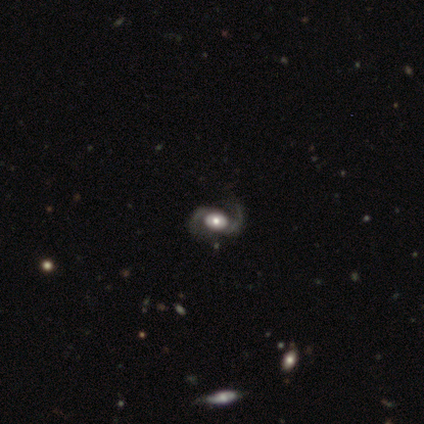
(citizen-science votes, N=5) A featured or disk galaxy (100%) with no bar (60%), 2 (100%) medium (60%) spiral arms (100%) and a moderate central bulge (60%).

Vote fractions:
- Smooth or featured? featured or disk: 100% / smooth: 0% / star or artifact: 0%
- Edge-on disk? no: 100% / yes: 0%
- Bar? no: 60% / weak: 40% / strong: 0%
- Spiral arms? yes: 100% / no: 0%
- Spiral winding? medium: 60% / loose: 40% / tight: 0%
- Spiral arm count? 2: 100% / 1: 0% / 3: 0% / 4: 0% / more than 4: 0% / can't tell: 0%
- Bulge size? moderate: 60% / large: 20% / small: 20% / dominant: 0% / none: 0%
- Merging? none: 60% / minor disturbance: 20% / major disturbance: 20% / merger: 0%